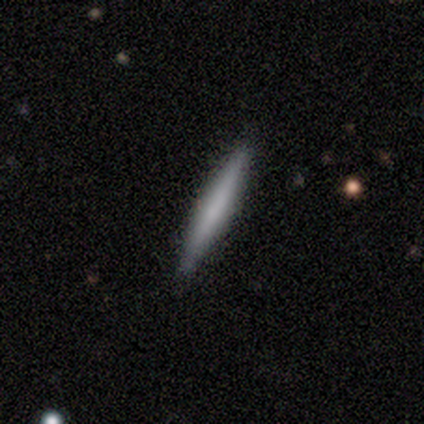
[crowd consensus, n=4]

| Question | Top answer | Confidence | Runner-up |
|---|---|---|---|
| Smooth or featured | smooth | 75% | featured or disk (25%) |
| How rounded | cigar-shaped | 100% | — |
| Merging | none | 75% | merger (25%) |